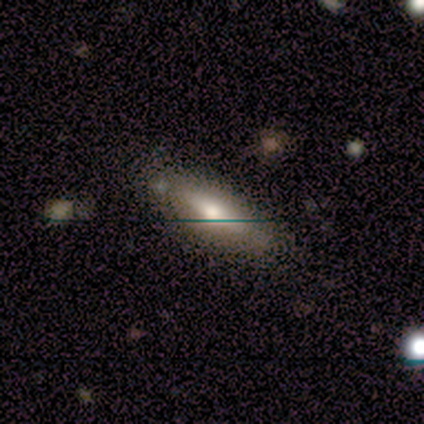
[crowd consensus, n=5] This appears to be a smooth galaxy with no disk features (60%) that is in between round and cigar-shaped (67%). Merging: none (80%).